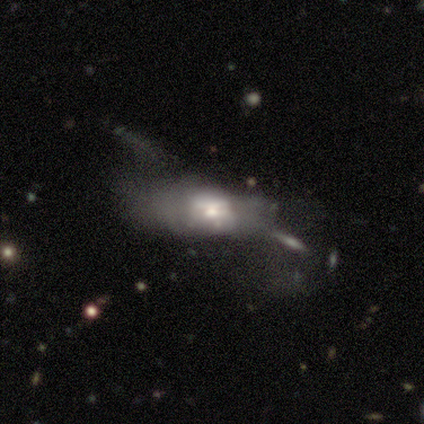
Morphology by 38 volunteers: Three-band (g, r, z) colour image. It shows a featured or disk galaxy (61%) with no bar (79%), no spiral arms (100%) and a moderate central bulge (42%, tied with small). Merging: major disturbance (32%).